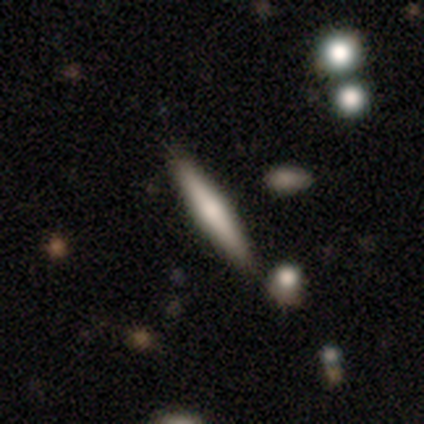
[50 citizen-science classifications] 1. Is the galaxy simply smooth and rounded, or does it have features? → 60% smooth, 36% featured or disk, 4% star or artifact.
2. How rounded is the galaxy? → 93% cigar-shaped, 7% in between, 0% round.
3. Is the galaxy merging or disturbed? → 83% none, 12% minor disturbance, 2% major disturbance, 2% merger.